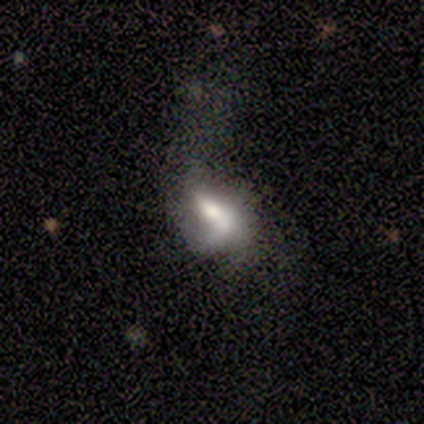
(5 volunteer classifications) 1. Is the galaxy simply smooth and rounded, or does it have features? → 80% featured or disk, 20% smooth, 0% star or artifact.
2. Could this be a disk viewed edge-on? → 75% no, 25% yes.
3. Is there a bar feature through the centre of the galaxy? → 100% weak, 0% strong, 0% no.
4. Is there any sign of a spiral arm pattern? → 100% no, 0% yes.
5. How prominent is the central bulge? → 67% large, 33% moderate, 0% dominant, 0% small, 0% none.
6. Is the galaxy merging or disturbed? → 40% major disturbance (tied), 40% merger (tied), 20% minor disturbance, 0% none.